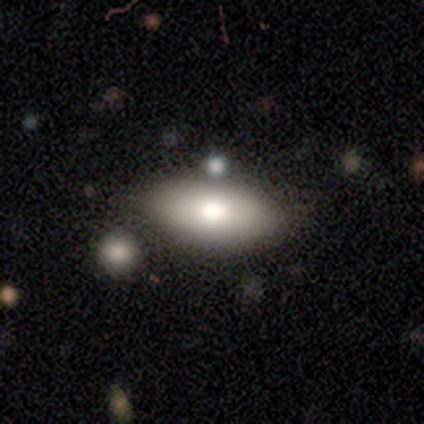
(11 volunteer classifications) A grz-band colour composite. It shows a smooth galaxy with no disk features (73%) that is in between round and cigar-shaped (100%). Merging: none (82%).